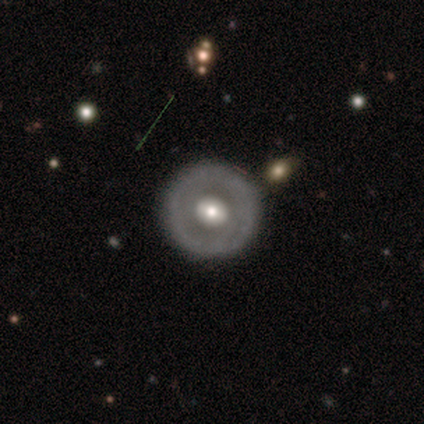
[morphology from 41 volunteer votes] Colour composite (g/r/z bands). It shows a featured or disk galaxy (71%) with no bar (76%), no spiral arms (96%) and a moderate central bulge (80%). Merging: none (88%).